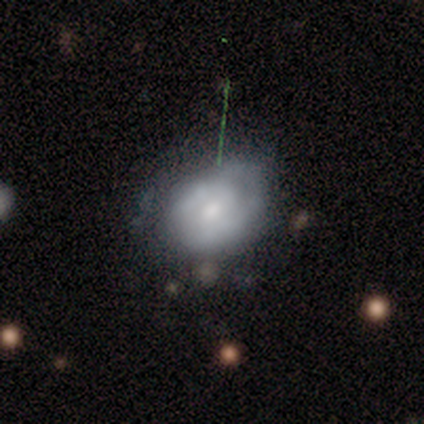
Smooth or featured: smooth — 54% (featured or disk — 44%)
How rounded: round — 52% (in between — 48%)
Merging: none — 39% (minor disturbance — 29%)